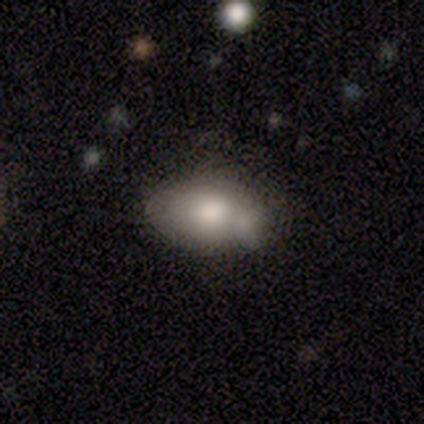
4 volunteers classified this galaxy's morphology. This is possibly a featured or disk galaxy (50%). It is clearly not viewed edge-on (100%). Bar: clearly no (100%). Spiral arm pattern: clearly no (100%). Central bulge: possibly moderate (50%, tied with small). Merging: likely minor disturbance (67%).